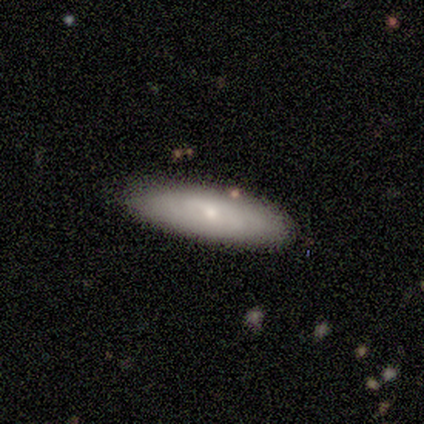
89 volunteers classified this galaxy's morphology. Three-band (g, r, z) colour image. It shows a smooth galaxy with no disk features (47%) that is in between round and cigar-shaped (62%). Merging: none (86%).